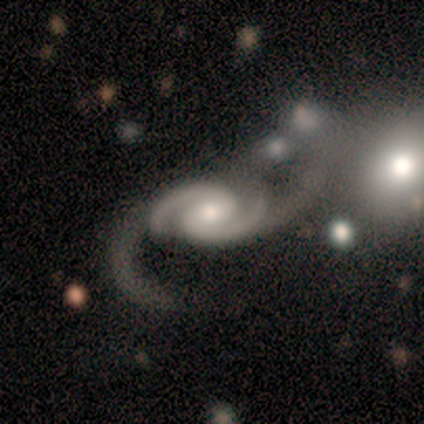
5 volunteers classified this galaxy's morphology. This appears to be a featured or disk galaxy (80%) with no bar (75%), 2 (100%) medium (75%) spiral arms (100%) and a moderate central bulge (50%, tied with small). Merging: major disturbance (80%).